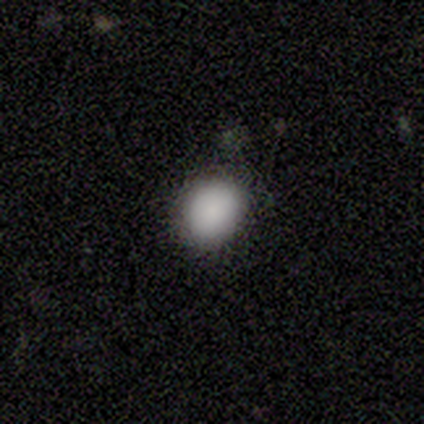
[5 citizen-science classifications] A smooth galaxy with no disk features (100%) that is round (80%). Merging: none (60%).